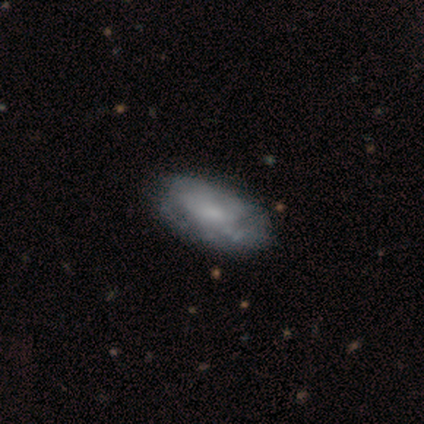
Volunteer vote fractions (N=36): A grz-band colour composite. It shows a featured or disk galaxy (56%) with no bar (76%), no spiral arms (65%) and a small central bulge (53%). Merging: none (31%, tied with minor disturbance).